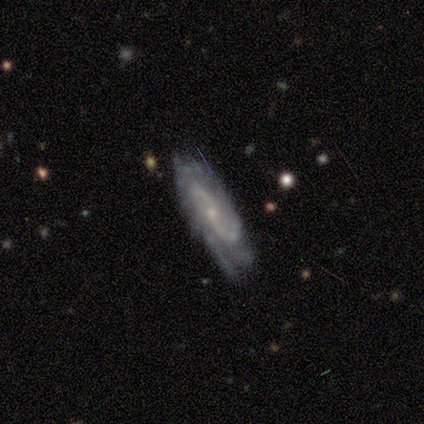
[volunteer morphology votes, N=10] Overall: featured or disk (100%). Edge-on disk: no (90%). Bar: no (67%; weak 33%). Spiral arms: yes (100%). Spiral arm count: 2 (67%). Spiral winding: tight (44%; medium 33%). Bulge size: small (67%; moderate 33%). Merging: minor disturbance (60%; none 40%).